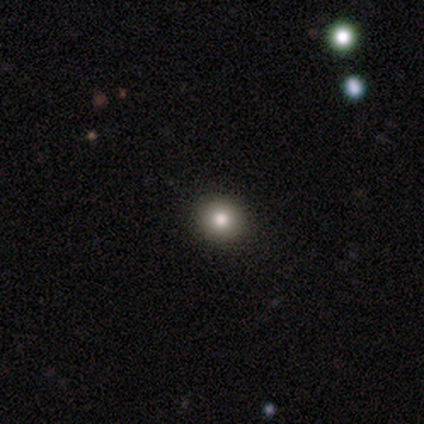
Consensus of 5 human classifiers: smooth_or_featured: smooth (p=0.60) [alt: featured or disk p=0.20]
how_rounded: round (p=0.67) [alt: in between p=0.33]
merging: none (p=1.00)